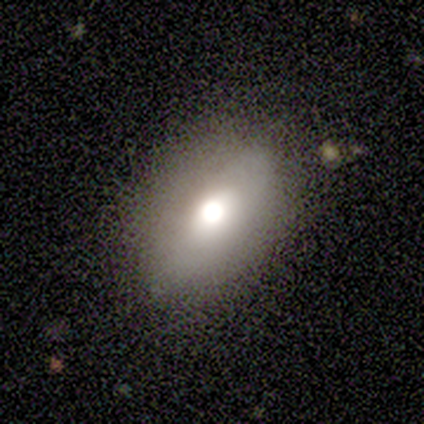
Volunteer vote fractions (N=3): smooth-or-featured: smooth: 100% | featured or disk: 0% | star or artifact: 0%
  how-rounded: in between: 100% | round: 0% | cigar-shaped: 0%
  merging: none: 67% | minor disturbance: 33% | major disturbance: 0% | merger: 0%